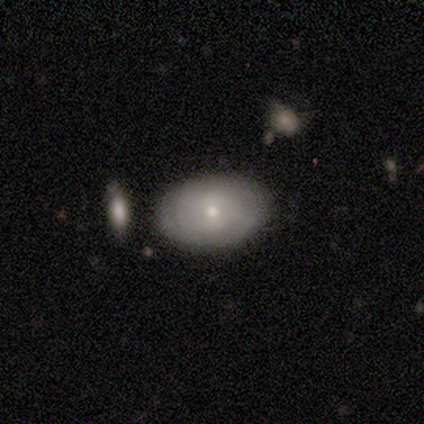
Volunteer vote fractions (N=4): Smooth or featured? smooth (50%, tied with featured or disk)
How rounded? in between (100%)
Merging? none (75%)